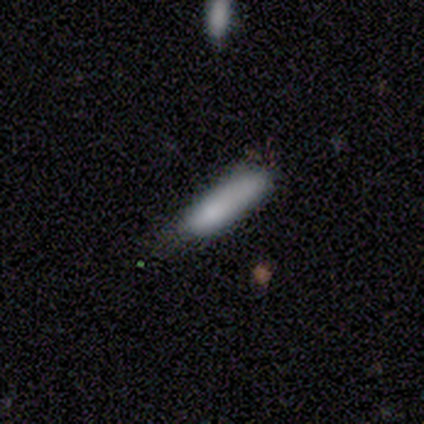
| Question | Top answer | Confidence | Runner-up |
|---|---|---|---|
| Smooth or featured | smooth | 77% | featured or disk (15%) |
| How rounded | cigar-shaped | 70% | in between (27%) |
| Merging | none | 58% | minor disturbance (22%) |